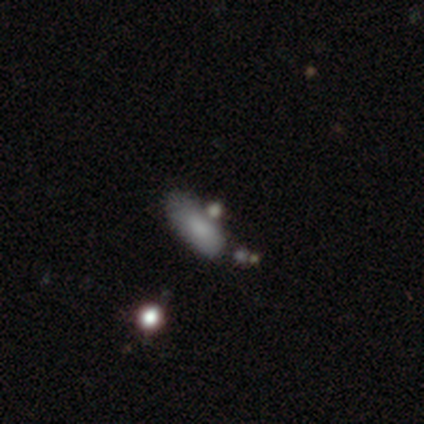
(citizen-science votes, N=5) Morphology: type=smooth (80%); roundness=in between (100%); merging=none (50%, tied with minor disturbance).